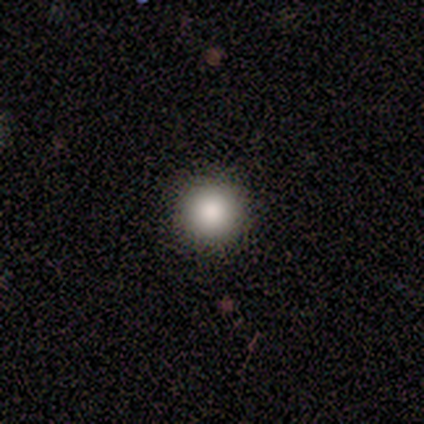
A smooth galaxy with no disk features (100%) that is round (100%). Merging: none (80%).